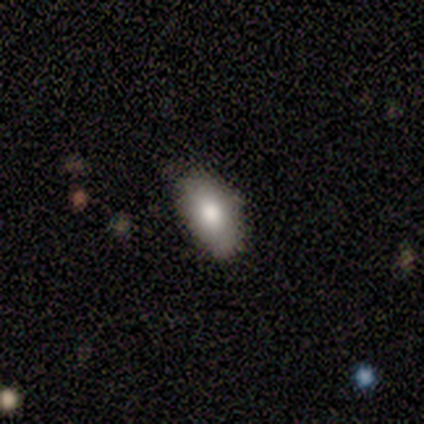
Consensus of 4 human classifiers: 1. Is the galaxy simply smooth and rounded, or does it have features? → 100% smooth, 0% featured or disk, 0% star or artifact.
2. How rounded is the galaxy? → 100% in between, 0% round, 0% cigar-shaped.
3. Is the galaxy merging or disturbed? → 75% none, 25% minor disturbance, 0% major disturbance, 0% merger.